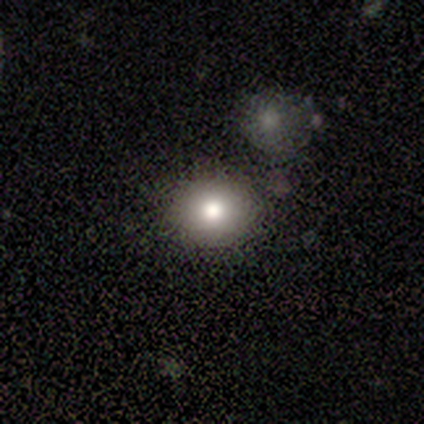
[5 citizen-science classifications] Morphology: type=smooth (60%); roundness=round (100%); merging=none (50%).